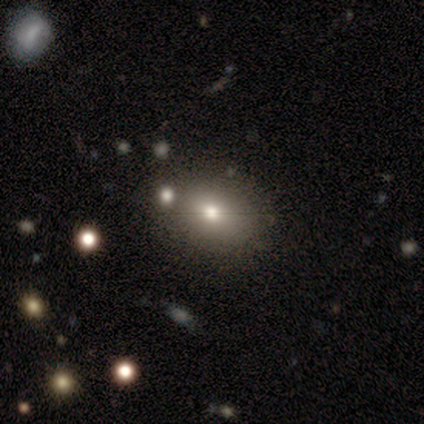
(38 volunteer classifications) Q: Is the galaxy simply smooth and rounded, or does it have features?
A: smooth — 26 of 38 (68%).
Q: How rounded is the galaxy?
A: in between — 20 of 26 (77%).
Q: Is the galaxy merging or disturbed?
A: none — 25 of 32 (78%).